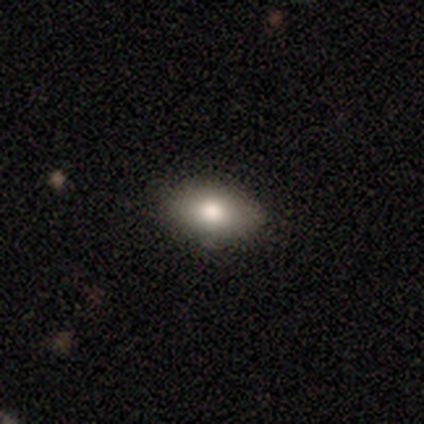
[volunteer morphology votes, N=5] smooth 80%, featured or disk 20%, star or artifact 0%. Down the decision tree: how rounded — in between (75%); merging — none (100%).